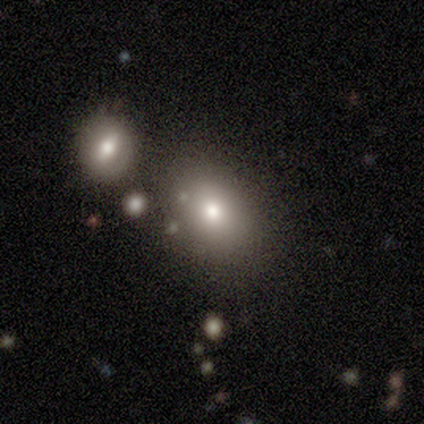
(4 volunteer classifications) smooth 75%, featured or disk 25%, star or artifact 0%. Down the decision tree: how rounded — in between (100%); merging — merger (50%).